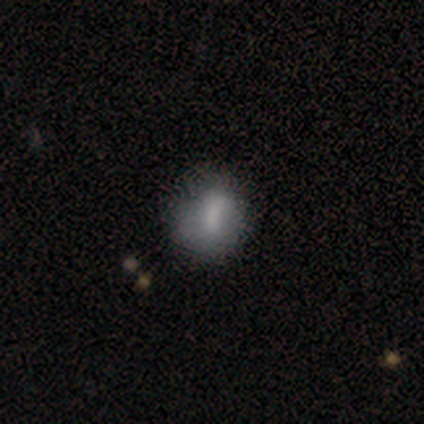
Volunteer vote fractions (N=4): smooth_or_featured: smooth (p=0.50) [tied with: featured or disk p=0.50]
how_rounded: in between (p=1.00)
merging: none (p=0.50) [tied with: minor disturbance p=0.50]